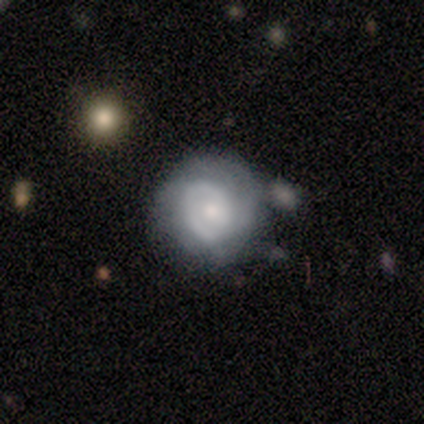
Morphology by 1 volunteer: Smooth or featured? smooth (100%)
How rounded? round (100%)
Merging? merger (100%)